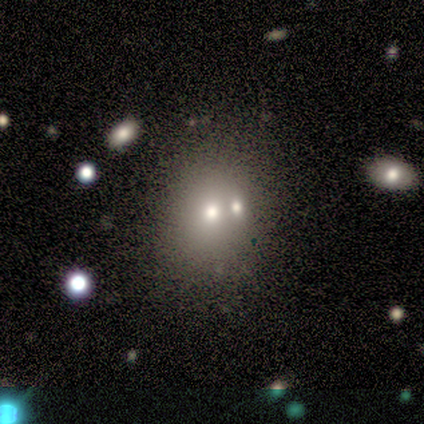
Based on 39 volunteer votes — Smooth or featured?
  - smooth: 56% *
  - star or artifact: 26%
  - featured or disk: 18%
How rounded?
  - round: 73% *
  - in between: 27%
  - cigar-shaped: 0%
Merging?
  - none: 48% *
  - merger: 41%
  - minor disturbance: 7%
  - major disturbance: 3%